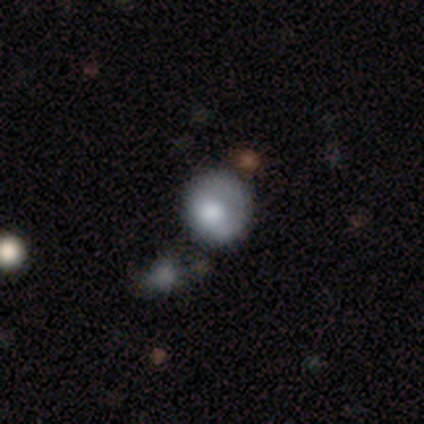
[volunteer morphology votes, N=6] Smooth or featured?
  - featured or disk: 50% *
  - star or artifact: 33%
  - smooth: 17%
Edge-on disk?
  - no: 100% *
  - yes: 0%
Bar?
  - no: 100% *
  - strong: 0%
  - weak: 0%
Spiral arms?
  - no: 67% *
  - yes: 33%
Bulge size?
  - large: 67% *
  - small: 33%
  - dominant: 0%
  - moderate: 0%
  - none: 0%
Merging?
  - none: 50% *
  - major disturbance: 25%
  - merger: 25%
  - minor disturbance: 0%